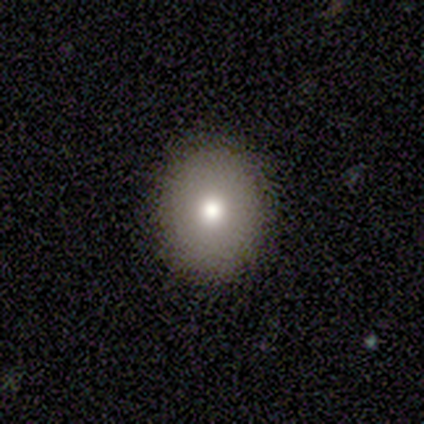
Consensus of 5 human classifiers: smooth-or-featured: smooth: 60% | featured or disk: 20% | star or artifact: 20%
  how-rounded: round: 100% | in between: 0% | cigar-shaped: 0%
  merging: none: 100% | minor disturbance: 0% | major disturbance: 0% | merger: 0%